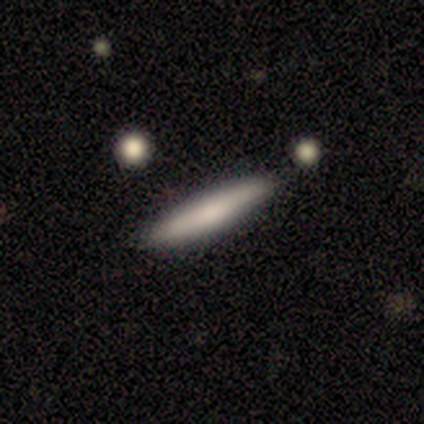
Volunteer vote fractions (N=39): Smooth or featured? 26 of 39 (67%) said smooth. How rounded? 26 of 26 (100%) said cigar-shaped. Merging? 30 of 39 (77%) said none.